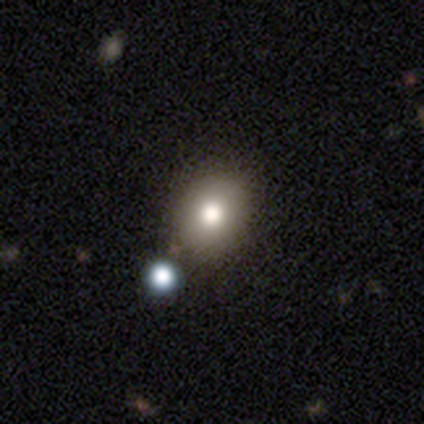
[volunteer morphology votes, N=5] smooth-or-featured: smooth: 100% | featured or disk: 0% | star or artifact: 0%
  how-rounded: round: 80% | in between: 20% | cigar-shaped: 0%
  merging: none: 100% | minor disturbance: 0% | major disturbance: 0% | merger: 0%